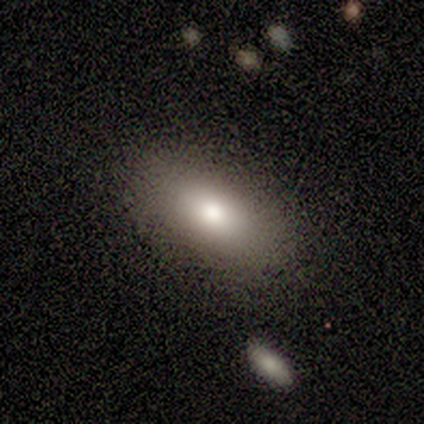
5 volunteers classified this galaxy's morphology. A smooth galaxy with no disk features (80%) that is in between round and cigar-shaped (100%).

Vote fractions:
- Smooth or featured? smooth: 80% / featured or disk: 20% / star or artifact: 0%
- How rounded? in between: 100% / round: 0% / cigar-shaped: 0%
- Merging? none: 100% / minor disturbance: 0% / major disturbance: 0% / merger: 0%